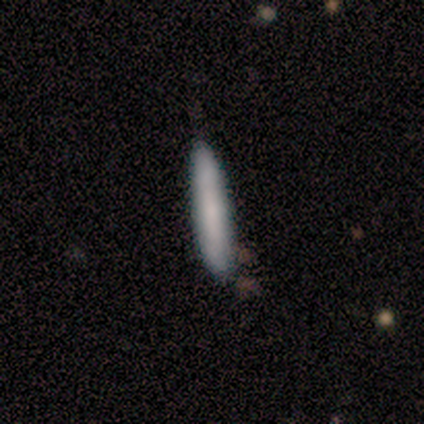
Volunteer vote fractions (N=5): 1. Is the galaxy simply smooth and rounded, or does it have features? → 80% smooth, 20% featured or disk, 0% star or artifact.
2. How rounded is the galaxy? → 100% cigar-shaped, 0% round, 0% in between.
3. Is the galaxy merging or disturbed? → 80% none, 20% minor disturbance, 0% major disturbance, 0% merger.